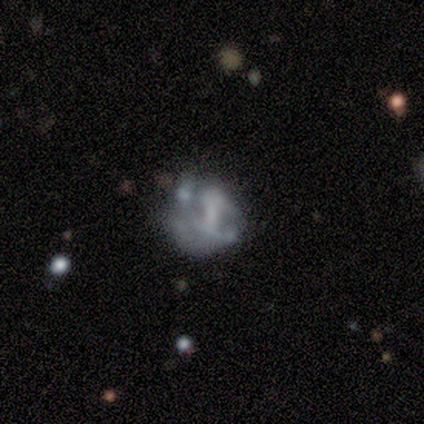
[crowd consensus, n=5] Smooth or featured: smooth — 60% (featured or disk — 40%)
How rounded: in between — 67% (round — 33%)
Merging: minor disturbance — 40% (tied with major disturbance — 40%)